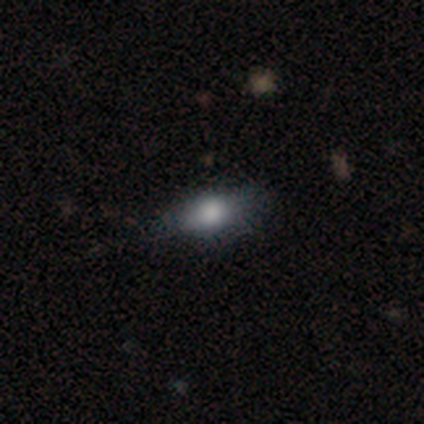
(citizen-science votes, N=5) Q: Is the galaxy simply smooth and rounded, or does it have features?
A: smooth — 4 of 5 (80%).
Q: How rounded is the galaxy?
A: in between — 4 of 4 (100%).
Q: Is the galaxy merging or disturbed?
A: none — 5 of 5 (100%).